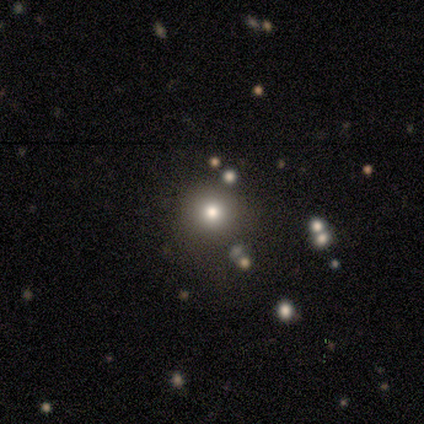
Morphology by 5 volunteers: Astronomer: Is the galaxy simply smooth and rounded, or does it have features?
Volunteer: star or artifact — 60%.